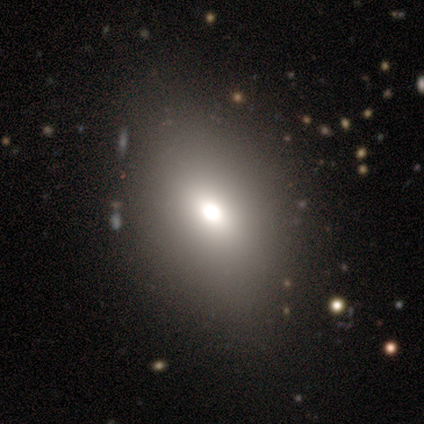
smooth-or-featured: smooth: 60% | star or artifact: 40% | featured or disk: 0%
  how-rounded: in between: 67% | round: 33% | cigar-shaped: 0%
  merging: none: 67% | major disturbance: 33% | minor disturbance: 0% | merger: 0%